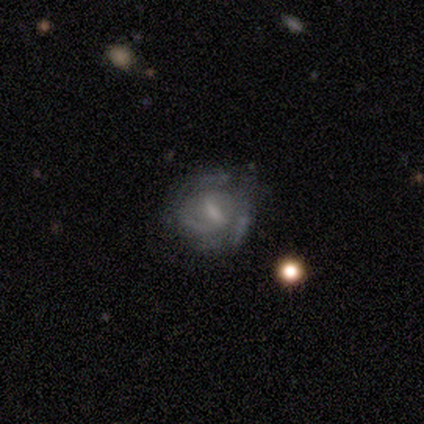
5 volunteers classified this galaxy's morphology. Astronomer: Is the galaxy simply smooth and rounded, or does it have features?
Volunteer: featured or disk — 100%.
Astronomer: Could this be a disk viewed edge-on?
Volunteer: no — 100%.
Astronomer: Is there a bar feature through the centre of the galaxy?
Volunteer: strong — 40%, tied with weak at 40%.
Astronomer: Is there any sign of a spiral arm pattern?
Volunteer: yes — 80%.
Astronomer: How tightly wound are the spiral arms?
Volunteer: tight — 50%, tied with medium at 50%.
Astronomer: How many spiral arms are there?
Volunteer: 2 — 50%.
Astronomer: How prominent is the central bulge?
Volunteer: moderate — 60%.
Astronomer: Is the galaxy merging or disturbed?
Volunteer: none — 60% (runner-up: minor disturbance, 40%).